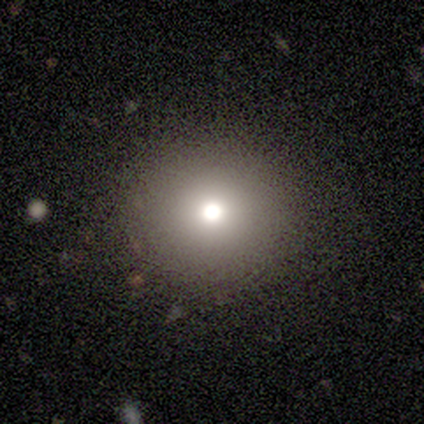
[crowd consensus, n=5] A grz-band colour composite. It shows a smooth galaxy with no disk features (60%) that is round (100%). Merging: none (75%).